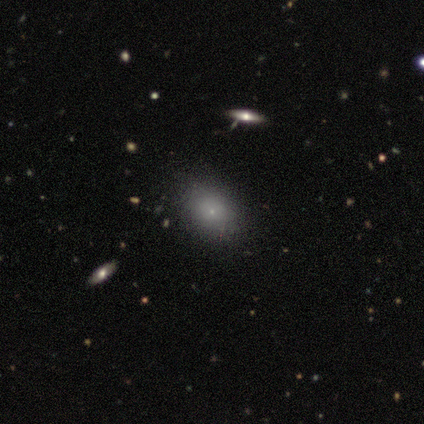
Morphology: type=smooth (67%); roundness=in between (100%); merging=none (67%).